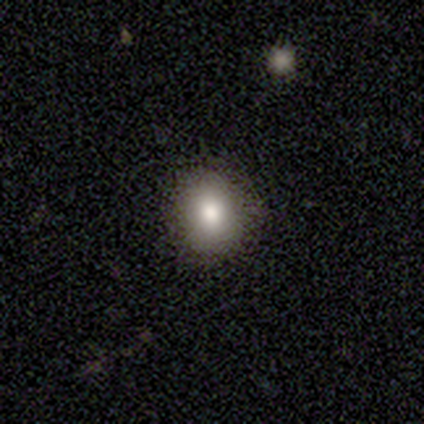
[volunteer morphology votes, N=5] A smooth galaxy with no disk features (80%) that is round (75%).

Vote fractions:
- Smooth or featured? smooth: 80% / star or artifact: 20% / featured or disk: 0%
- How rounded? round: 75% / in between: 25% / cigar-shaped: 0%
- Merging? none: 100% / minor disturbance: 0% / major disturbance: 0% / merger: 0%